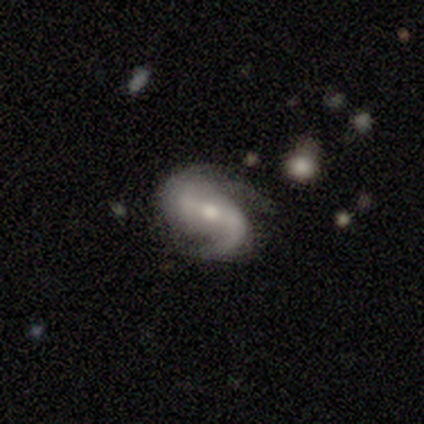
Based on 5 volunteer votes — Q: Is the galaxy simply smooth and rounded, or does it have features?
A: featured or disk — 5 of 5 (100%).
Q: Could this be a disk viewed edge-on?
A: no — 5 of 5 (100%).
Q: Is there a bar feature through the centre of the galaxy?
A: strong — 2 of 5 (40%, tied with weak).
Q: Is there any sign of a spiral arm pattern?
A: yes — 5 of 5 (100%).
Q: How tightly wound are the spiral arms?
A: medium — 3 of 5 (60%).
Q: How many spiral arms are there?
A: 2 — 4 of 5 (80%).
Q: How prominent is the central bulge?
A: moderate — 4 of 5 (80%).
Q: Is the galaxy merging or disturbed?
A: none — 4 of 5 (80%).